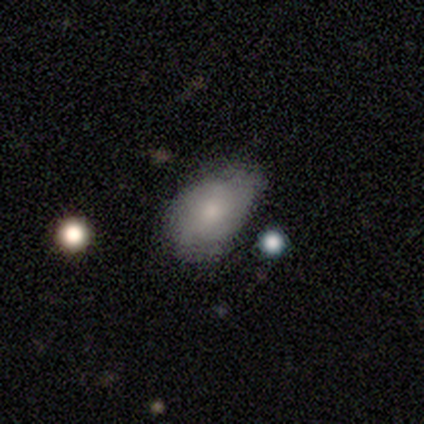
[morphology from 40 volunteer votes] Q: Smooth or featured?
A: smooth (57%); runner-up: featured or disk (35%)
Q: How rounded?
A: in between (100%)
Q: Merging?
A: minor disturbance (54%); runner-up: none (41%)